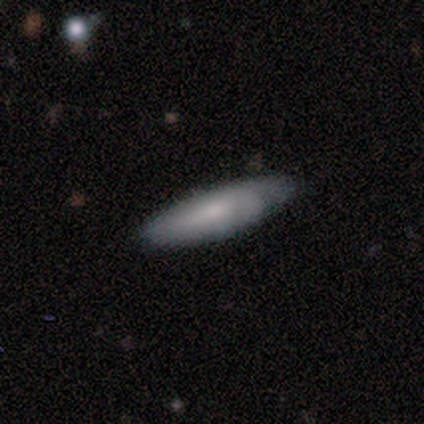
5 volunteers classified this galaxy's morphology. Smooth or featured? 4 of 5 (80%) said smooth. How rounded? 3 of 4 (75%) said in between. Merging? 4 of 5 (80%) said none.